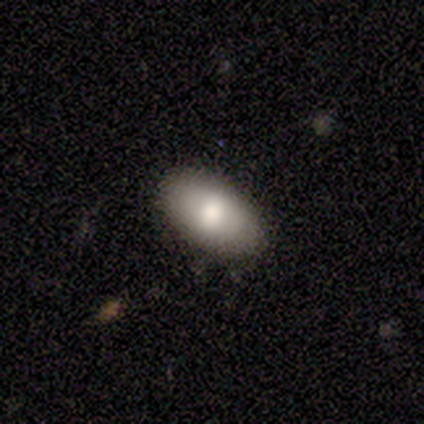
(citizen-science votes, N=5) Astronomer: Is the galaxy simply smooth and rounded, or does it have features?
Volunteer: smooth — 80%.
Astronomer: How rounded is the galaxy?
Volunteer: in between — 100%.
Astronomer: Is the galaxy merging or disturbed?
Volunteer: none — 100%.